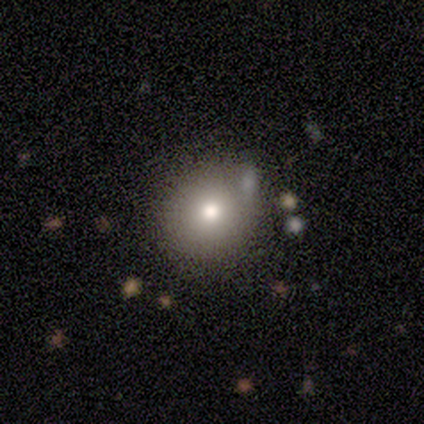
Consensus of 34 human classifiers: Smooth or featured? smooth (71%)
How rounded? round (100%)
Merging? none (83%)